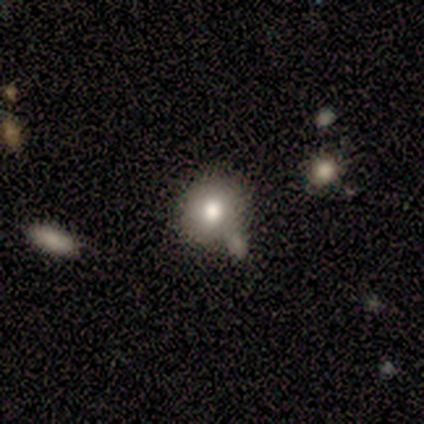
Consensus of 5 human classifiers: A smooth galaxy with no disk features (100%) that is round (80%).

Vote fractions:
- Smooth or featured? smooth: 100% / featured or disk: 0% / star or artifact: 0%
- How rounded? round: 80% / in between: 20% / cigar-shaped: 0%
- Merging? merger: 60% / none: 40% / minor disturbance: 0% / major disturbance: 0%